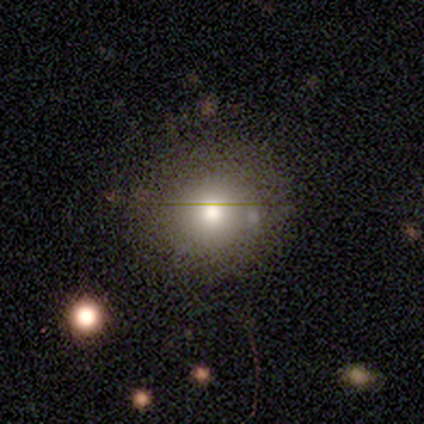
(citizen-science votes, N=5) Smooth or featured: featured or disk — 60% (smooth — 40%)
Edge-on disk: no — 100%
Bar: no — 100%
Spiral arms: no — 100%
Bulge size: moderate — 67% (large — 33%)
Merging: none — 80% (merger — 20%)